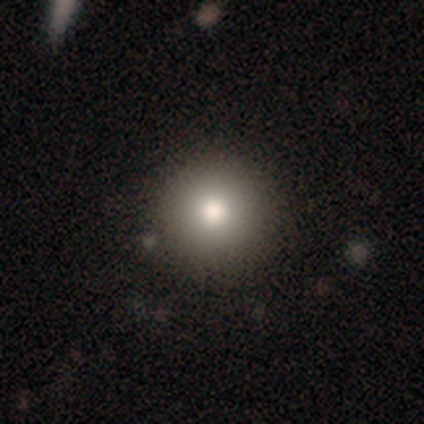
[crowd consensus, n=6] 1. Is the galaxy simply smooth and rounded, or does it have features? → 100% smooth, 0% featured or disk, 0% star or artifact.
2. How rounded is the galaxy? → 100% round, 0% in between, 0% cigar-shaped.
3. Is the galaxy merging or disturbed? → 100% none, 0% minor disturbance, 0% major disturbance, 0% merger.